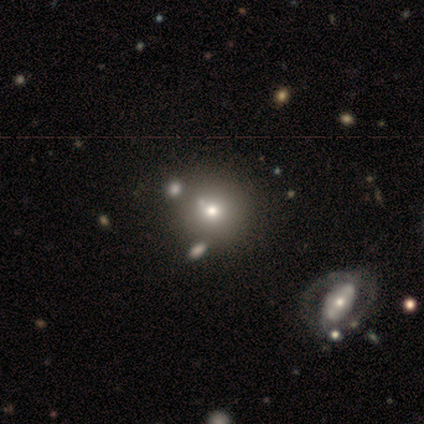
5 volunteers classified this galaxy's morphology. This is likely a smooth galaxy (60%). How rounded: clearly round (100%). Merging: possibly none (50%).